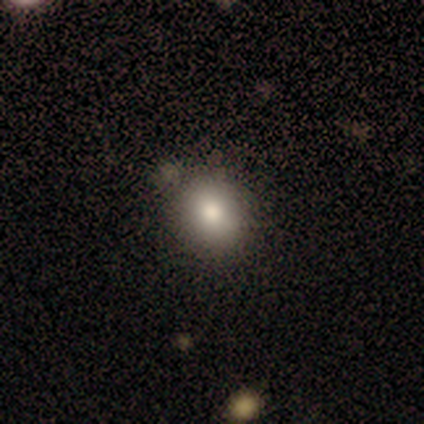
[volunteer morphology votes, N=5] This is clearly a smooth galaxy (80%). How rounded: clearly round (100%). Merging: likely minor disturbance (60%).